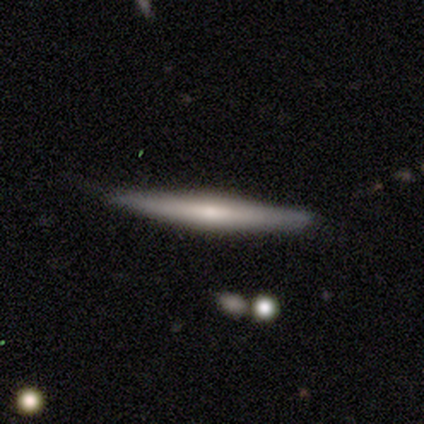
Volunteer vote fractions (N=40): smooth_or_featured: smooth (p=0.57) [alt: featured or disk p=0.40]
how_rounded: cigar-shaped (p=1.00)
merging: none (p=0.72) [alt: minor disturbance p=0.26]